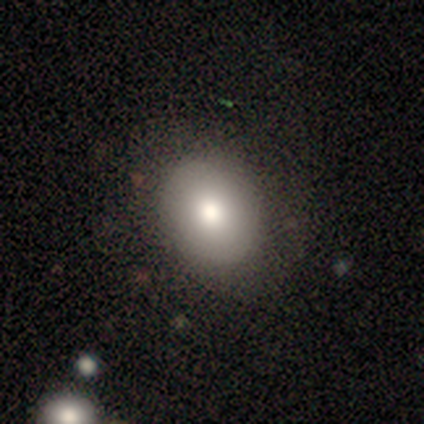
Smooth or featured?
  - smooth: 100% *
  - featured or disk: 0%
  - star or artifact: 0%
How rounded?
  - in between: 100% *
  - round: 0%
  - cigar-shaped: 0%
Merging?
  - none: 75% *
  - minor disturbance: 25%
  - major disturbance: 0%
  - merger: 0%